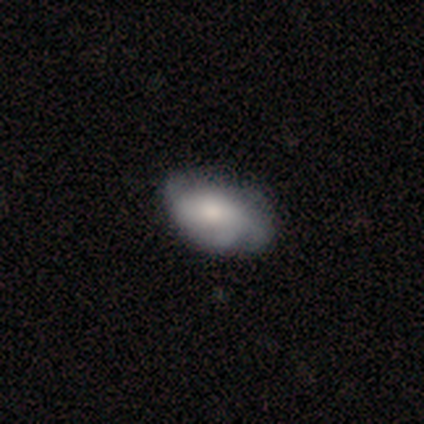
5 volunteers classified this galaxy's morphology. This is likely a smooth galaxy (60%). How rounded: clearly in between (100%). Merging: likely none (60%).